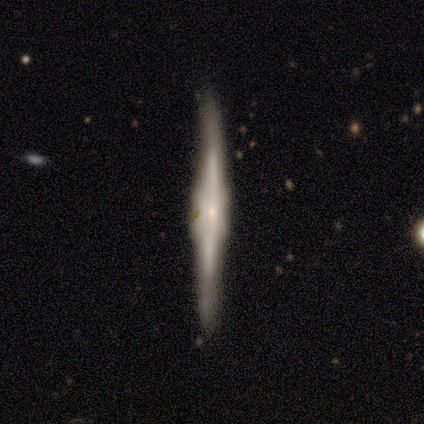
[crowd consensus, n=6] Q: Smooth or featured?
A: featured or disk (83%); runner-up: star or artifact (17%)
Q: Edge-on disk?
A: yes (100%)
Q: Edge-on bulge?
A: boxy (60%); runner-up: rounded (40%)
Q: Merging?
A: none (60%); runner-up: minor disturbance (40%)